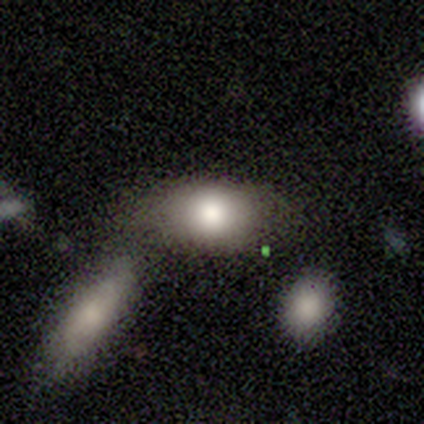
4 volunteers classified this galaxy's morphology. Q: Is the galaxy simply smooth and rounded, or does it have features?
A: smooth — 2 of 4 (50%).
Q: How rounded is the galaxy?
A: in between — 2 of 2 (100%).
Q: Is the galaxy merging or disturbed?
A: none — 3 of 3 (100%).